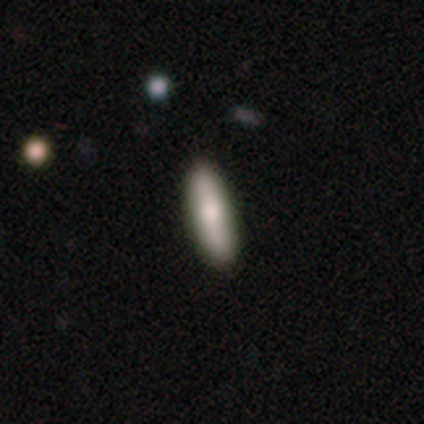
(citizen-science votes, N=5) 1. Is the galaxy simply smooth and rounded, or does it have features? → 100% smooth, 0% featured or disk, 0% star or artifact.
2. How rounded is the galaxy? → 80% cigar-shaped, 20% in between, 0% round.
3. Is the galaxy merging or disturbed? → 100% none, 0% minor disturbance, 0% major disturbance, 0% merger.